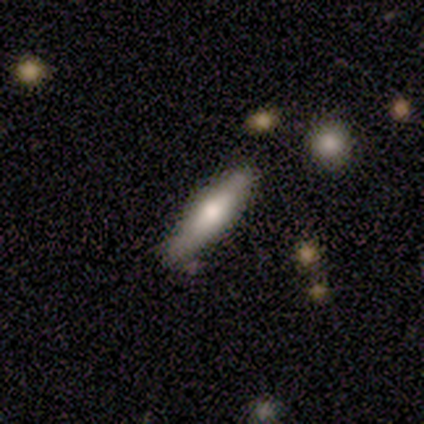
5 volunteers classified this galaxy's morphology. Volunteers were most divided on "smooth or featured": smooth: 60%, featured or disk: 40%, star or artifact: 0%. More confident: how rounded — cigar-shaped (100%); merging — none (100%).